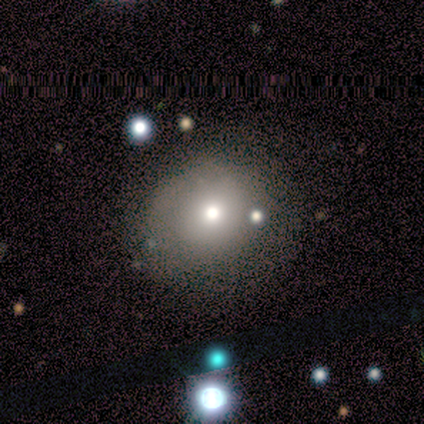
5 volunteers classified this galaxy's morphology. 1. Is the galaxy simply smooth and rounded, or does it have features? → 100% smooth, 0% featured or disk, 0% star or artifact.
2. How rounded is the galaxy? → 80% round, 20% in between, 0% cigar-shaped.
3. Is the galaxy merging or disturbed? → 80% none, 20% minor disturbance, 0% major disturbance, 0% merger.